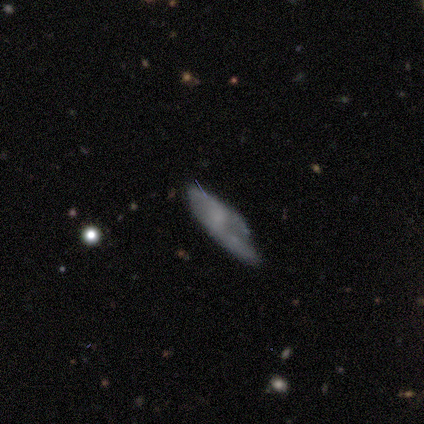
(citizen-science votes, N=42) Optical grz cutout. It shows a featured or disk galaxy (45%) with no bar (71%), no spiral arms (53%) and no central bulge (65%). Merging: none (35%).